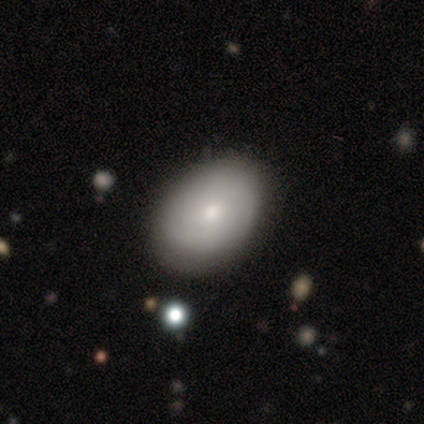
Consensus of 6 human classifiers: A smooth galaxy with no disk features (67%) that is in between round and cigar-shaped (100%).

Vote fractions:
- Smooth or featured? smooth: 67% / featured or disk: 33% / star or artifact: 0%
- How rounded? in between: 100% / round: 0% / cigar-shaped: 0%
- Merging? none: 83% / minor disturbance: 17% / major disturbance: 0% / merger: 0%